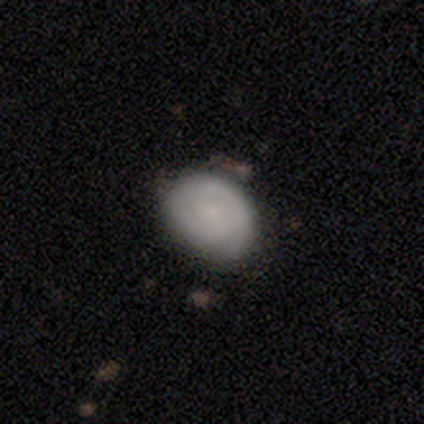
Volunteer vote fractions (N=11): A smooth galaxy with no disk features (55%) that is in between round and cigar-shaped (83%).

Vote fractions:
- Smooth or featured? smooth: 55% / featured or disk: 36% / star or artifact: 9%
- How rounded? in between: 83% / round: 17% / cigar-shaped: 0%
- Merging? none: 70% / minor disturbance: 30% / major disturbance: 0% / merger: 0%